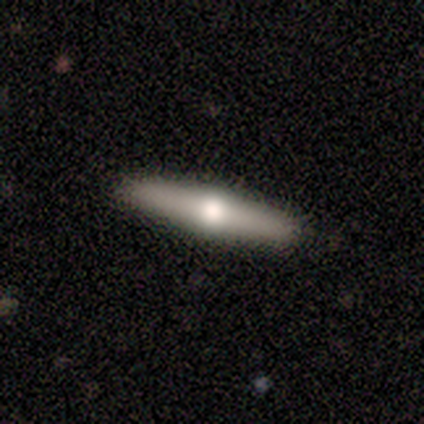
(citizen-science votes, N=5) Q: Smooth or featured?
A: featured or disk (80%); runner-up: smooth (20%)
Q: Edge-on disk?
A: yes (100%)
Q: Edge-on bulge?
A: rounded (100%)
Q: Merging?
A: none (100%)